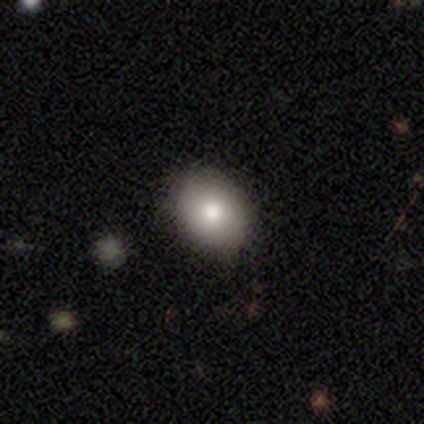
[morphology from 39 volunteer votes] smooth-or-featured: smooth: 67% | star or artifact: 18% | featured or disk: 15%
  how-rounded: in between: 69% | round: 27% | cigar-shaped: 4%
  merging: none: 88% | minor disturbance: 9% | major disturbance: 3% | merger: 0%